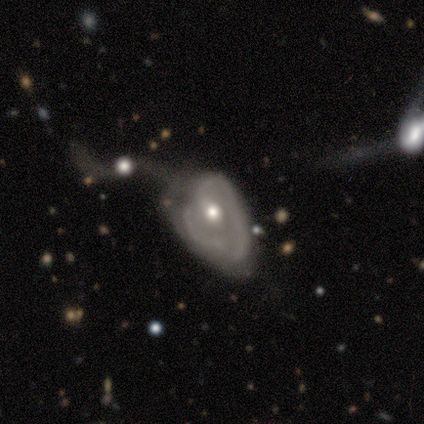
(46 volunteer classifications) smooth-or-featured: featured or disk: 76% | star or artifact: 13% | smooth: 11%
  disk-edge-on: no: 97% | yes: 3%
    bar: no: 71% | weak: 21% | strong: 9%
    has-spiral-arms: yes: 76% | no: 24%
      spiral-winding: medium: 50% | tight: 27% | loose: 23%
      spiral-arm-count: 2: 46% | 1: 23% | can't tell: 19% | 3: 12% | 4: 0% | more than 4: 0%
    bulge-size: moderate: 68% | small: 26% | large: 6% | dominant: 0% | none: 0%
  merging: major disturbance: 45% | minor disturbance: 28% | merger: 22% | none: 5%